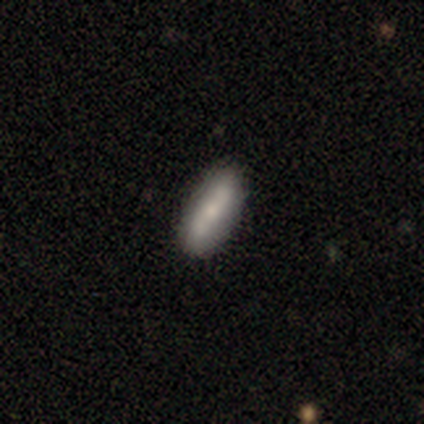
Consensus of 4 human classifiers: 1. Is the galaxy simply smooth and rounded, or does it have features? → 75% smooth, 25% featured or disk, 0% star or artifact.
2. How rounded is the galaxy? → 67% in between, 33% cigar-shaped, 0% round.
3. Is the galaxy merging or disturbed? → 75% none, 25% merger, 0% minor disturbance, 0% major disturbance.